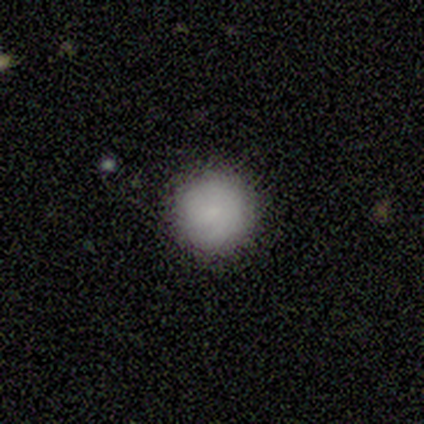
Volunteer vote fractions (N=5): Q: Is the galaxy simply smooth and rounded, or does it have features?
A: smooth — 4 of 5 (80%).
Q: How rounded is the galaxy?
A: round — 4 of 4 (100%).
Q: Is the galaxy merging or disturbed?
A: none — 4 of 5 (80%).